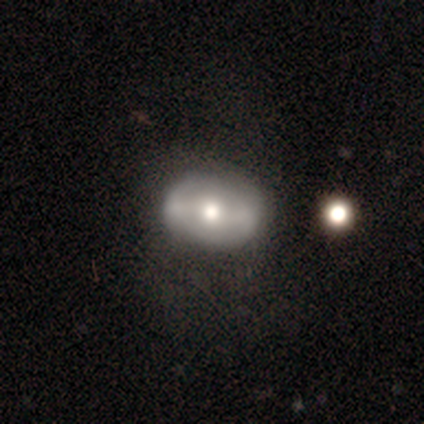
Volunteers were most divided on "bar": strong: 43%, no: 39%, weak: 17%. More confident: edge-on disk — no (100%); spiral arms — no (74%); bulge size — moderate (70%); smooth or featured — featured or disk (61%); merging — none (50%).